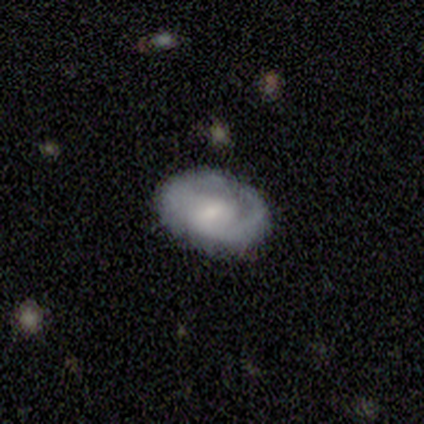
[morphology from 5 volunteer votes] This appears to be a smooth galaxy with no disk features (60%) that is in between round and cigar-shaped (100%). Merging: none (80%).